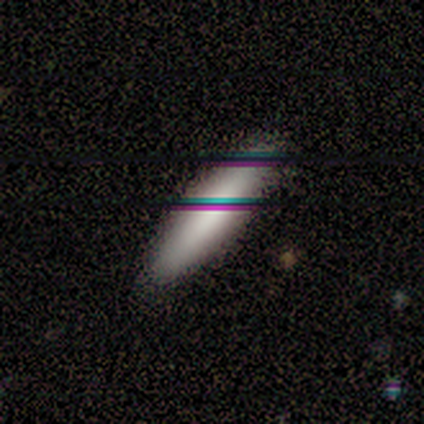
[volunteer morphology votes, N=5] Smooth or featured? smooth (100%)
How rounded? in between (60%)
Merging? none (100%)